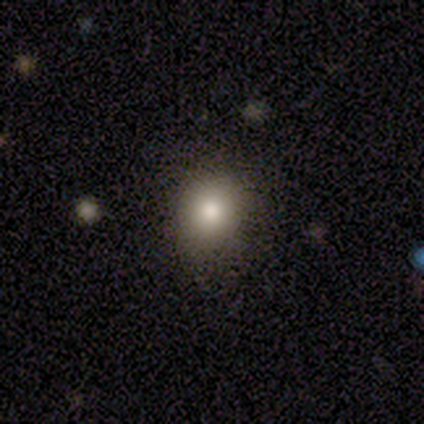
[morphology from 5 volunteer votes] type=smooth (100%); roundness=round (80%); merging=none (100%).